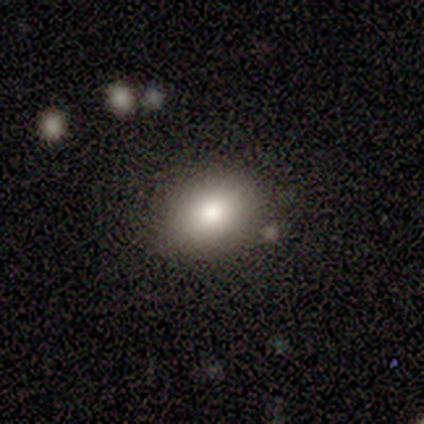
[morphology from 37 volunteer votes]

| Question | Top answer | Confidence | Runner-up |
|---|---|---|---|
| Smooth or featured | smooth | 86% | featured or disk (11%) |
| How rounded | in between | 81% | round (19%) |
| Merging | none | 83% | minor disturbance (11%) |